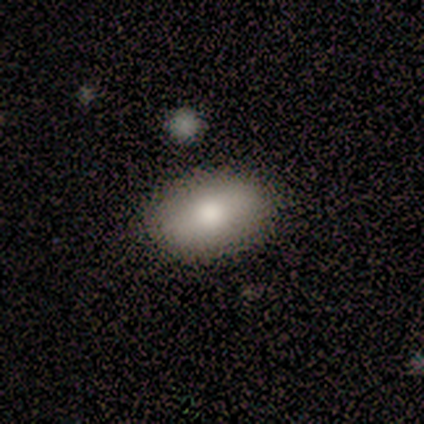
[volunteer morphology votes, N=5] A smooth galaxy with no disk features (60%) that is in between round and cigar-shaped (100%).

Vote fractions:
- Smooth or featured? smooth: 60% / featured or disk: 40% / star or artifact: 0%
- How rounded? in between: 100% / round: 0% / cigar-shaped: 0%
- Merging? none: 100% / minor disturbance: 0% / major disturbance: 0% / merger: 0%